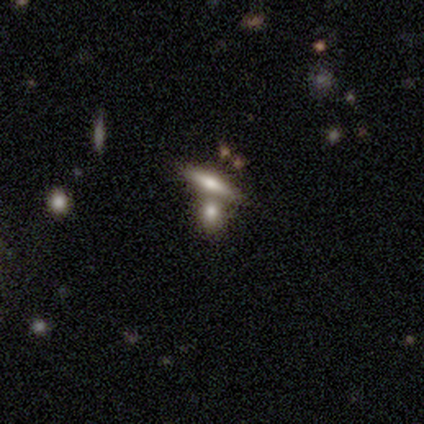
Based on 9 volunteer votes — This is likely a smooth galaxy (67%). How rounded: possibly round (50%). Merging: marginally none (44%, tied with merger).